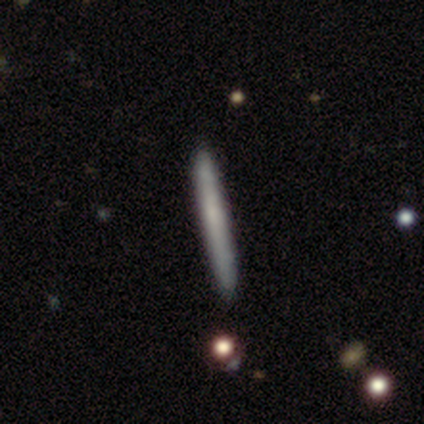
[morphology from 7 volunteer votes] Smooth or featured: smooth — 57% (featured or disk — 43%)
How rounded: cigar-shaped — 100%
Merging: none — 71% (minor disturbance — 14%)